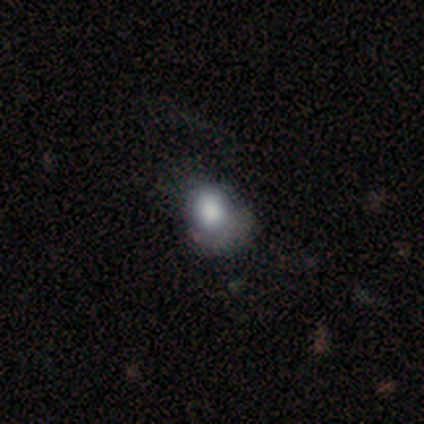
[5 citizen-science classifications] smooth 100%, featured or disk 0%, star or artifact 0%. Down the decision tree: how rounded — round (60%); merging — none (60%).